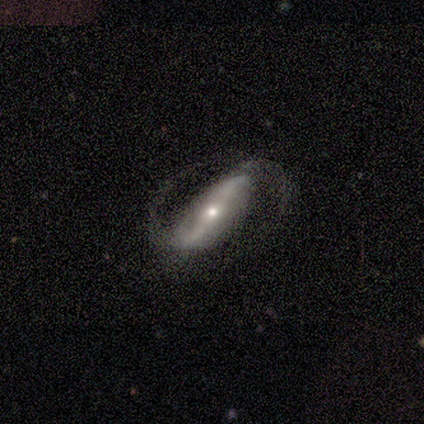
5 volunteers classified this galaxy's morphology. Volunteers were most divided on "bar": strong: 50%, weak: 25%, no: 25%. More confident: edge-on disk — no (100%); spiral arms — yes (100%); spiral arm count — 2 (100%); merging — none (100%); smooth or featured — featured or disk (80%); bulge size — small (75%); spiral winding — medium (50%).